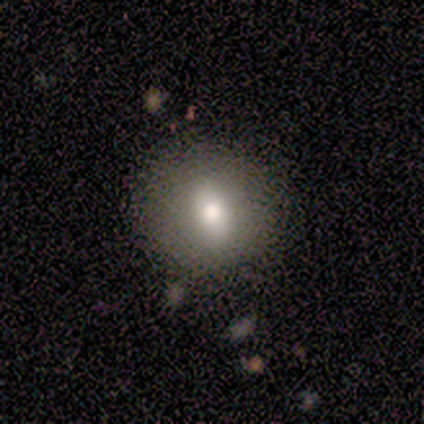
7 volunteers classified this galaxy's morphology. Smooth or featured: smooth — 86% (star or artifact — 14%)
How rounded: round — 83% (in between — 17%)
Merging: none — 67% (minor disturbance — 33%)